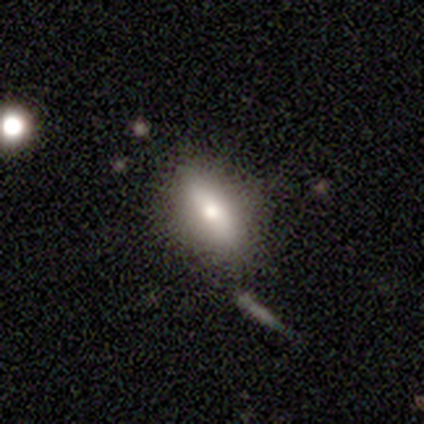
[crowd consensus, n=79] smooth-or-featured: smooth: 72% | featured or disk: 23% | star or artifact: 5%
  how-rounded: in between: 77% | cigar-shaped: 18% | round: 5%
  merging: none: 35% | minor disturbance: 13% | merger: 3% | major disturbance: 1%